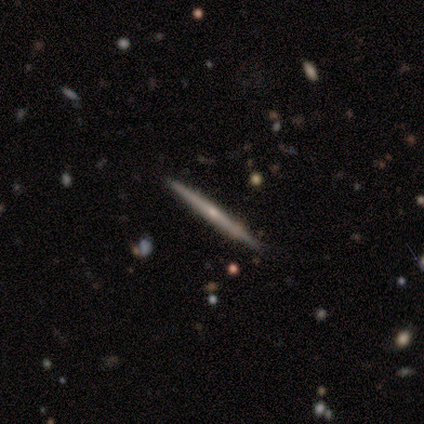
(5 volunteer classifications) Smooth or featured? featured or disk (100%)
Edge-on disk? yes (100%)
Edge-on bulge? none (80%)
Merging? none (100%)